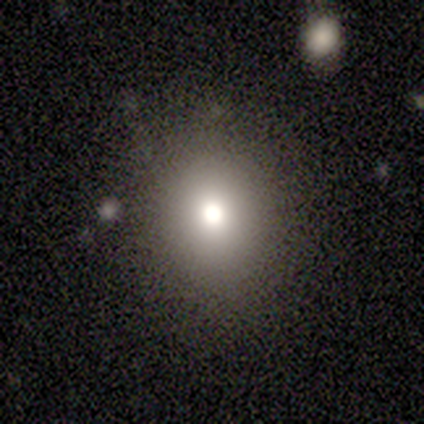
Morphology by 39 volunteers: Smooth or featured? 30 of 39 (77%) said smooth. How rounded? 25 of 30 (83%) said round. Merging? 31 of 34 (91%) said none.